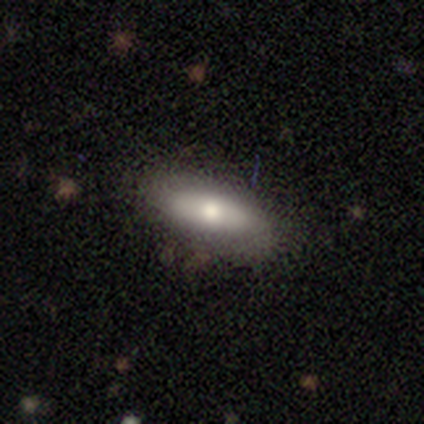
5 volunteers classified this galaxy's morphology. Smooth or featured: smooth — 100%
How rounded: in between — 80% (cigar-shaped — 20%)
Merging: none — 60% (minor disturbance — 40%)